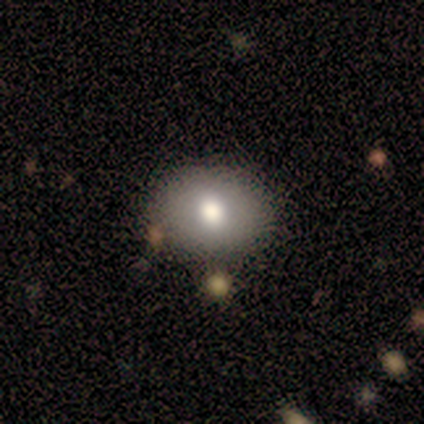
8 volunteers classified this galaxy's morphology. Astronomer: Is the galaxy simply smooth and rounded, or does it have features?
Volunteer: smooth — 50% (runner-up: featured or disk, 38%).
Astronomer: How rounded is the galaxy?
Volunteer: round — 50%, tied with in between at 50%.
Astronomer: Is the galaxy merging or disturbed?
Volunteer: none — 100%.